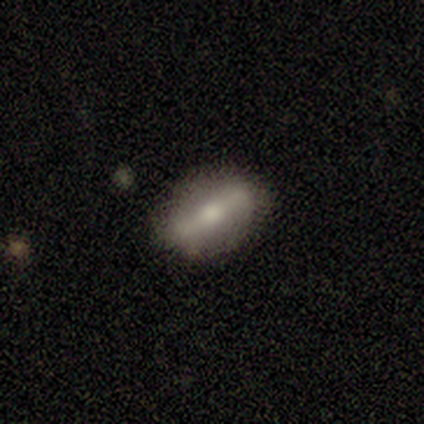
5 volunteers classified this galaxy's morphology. featured or disk 80%, smooth 20%, star or artifact 0%. Down the decision tree: edge-on disk — no (100%); bar — strong (75%); spiral arms — no (100%); bulge size — moderate (100%); merging — none (80%).